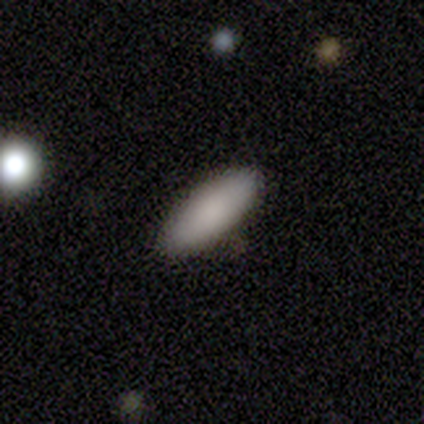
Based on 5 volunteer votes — A smooth galaxy with no disk features (100%) that is in between round and cigar-shaped (60%). Merging: none (100%).